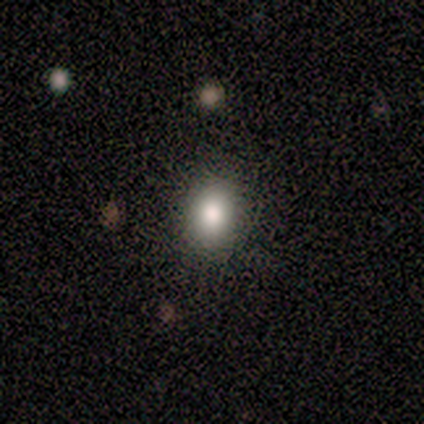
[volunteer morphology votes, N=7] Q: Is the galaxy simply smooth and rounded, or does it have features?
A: smooth — 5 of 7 (71%).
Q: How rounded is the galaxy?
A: in between — 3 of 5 (60%).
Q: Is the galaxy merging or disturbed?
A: none — 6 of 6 (100%).